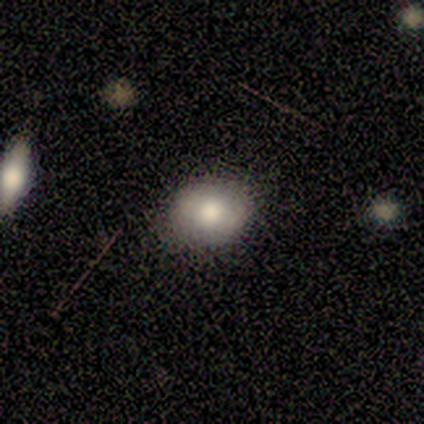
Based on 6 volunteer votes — This appears to be a smooth galaxy with no disk features (83%) that is round (80%). Merging: none (80%).